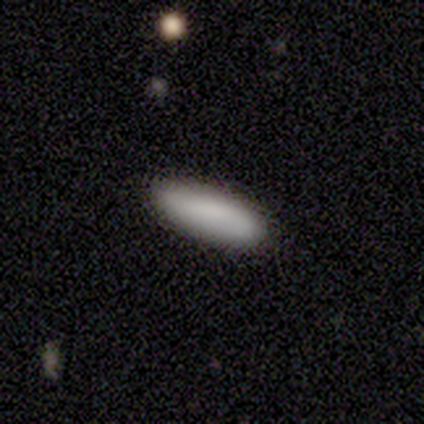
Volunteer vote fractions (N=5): A smooth galaxy with no disk features (60%) that is in between round and cigar-shaped (67%). Merging: none (100%).